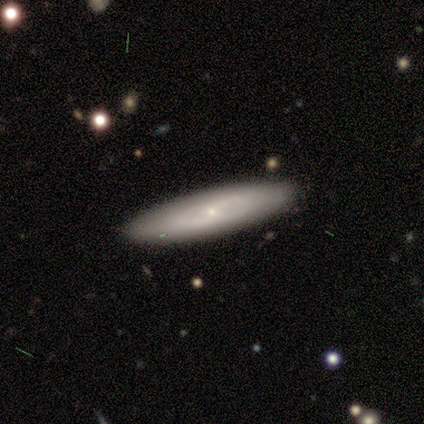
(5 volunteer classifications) Volunteers were most divided on "smooth or featured": smooth: 60%, featured or disk: 40%, star or artifact: 0%. More confident: merging — none (100%); how rounded — in between (67%).